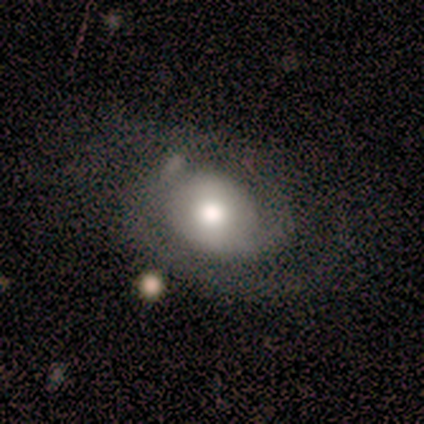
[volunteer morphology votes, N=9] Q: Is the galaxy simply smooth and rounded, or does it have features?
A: featured or disk — 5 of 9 (56%).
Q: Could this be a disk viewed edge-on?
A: no — 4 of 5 (80%).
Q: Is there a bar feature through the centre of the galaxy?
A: no — 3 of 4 (75%).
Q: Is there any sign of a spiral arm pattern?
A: yes — 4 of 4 (100%).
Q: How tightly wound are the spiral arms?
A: tight — 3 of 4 (75%).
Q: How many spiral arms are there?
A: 2 — 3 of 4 (75%).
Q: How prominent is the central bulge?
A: moderate — 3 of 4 (75%).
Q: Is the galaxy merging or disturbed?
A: none — 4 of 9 (44%, tied with major disturbance).